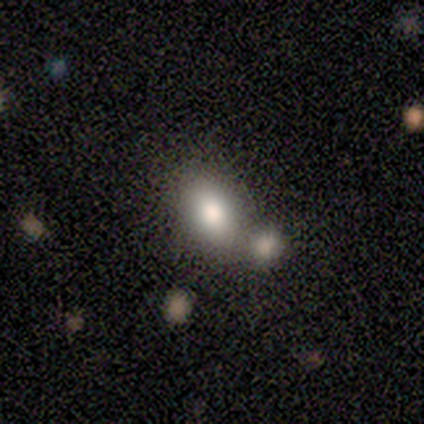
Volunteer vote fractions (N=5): Overall: smooth (100%). How rounded: in between (80%). Merging: none (40%, tied with merger).